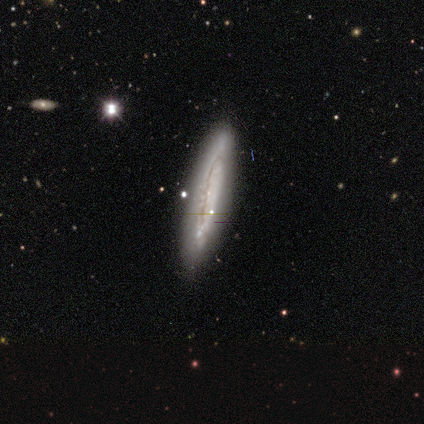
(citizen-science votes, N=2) Morphology: type=smooth (50%, tied with featured or disk); roundness=cigar-shaped (100%); merging=none (50%, tied with minor disturbance).